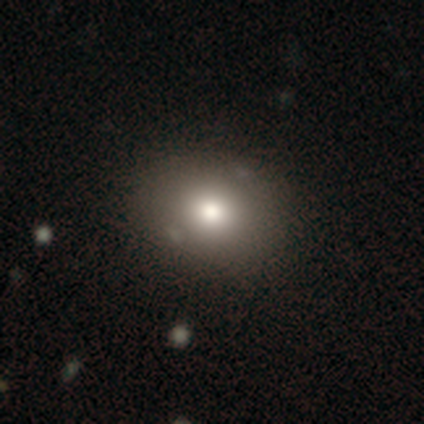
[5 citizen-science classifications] Overall: smooth (100%). How rounded: round (60%; in between 40%). Merging: none (100%).